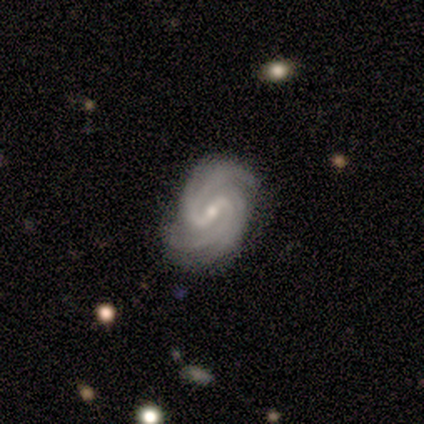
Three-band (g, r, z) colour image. It shows a featured or disk galaxy (100%) with a weak bar (80%), 2 (80%) tight (60%) spiral arms (100%) and a small central bulge (80%). Merging: none (60%).